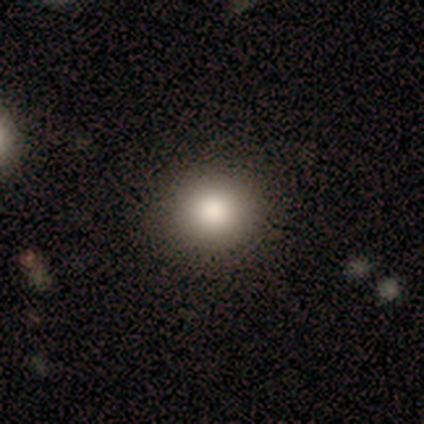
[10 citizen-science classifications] smooth-or-featured: smooth: 90% | featured or disk: 10% | star or artifact: 0%
  how-rounded: round: 100% | in between: 0% | cigar-shaped: 0%
  merging: none: 100% | minor disturbance: 0% | major disturbance: 0% | merger: 0%